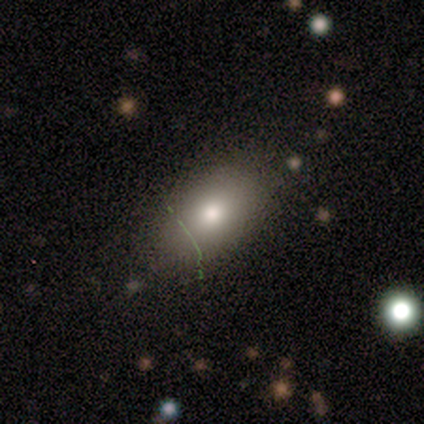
This is clearly a smooth galaxy (80%). How rounded: clearly in between (100%). Merging: clearly none (100%).